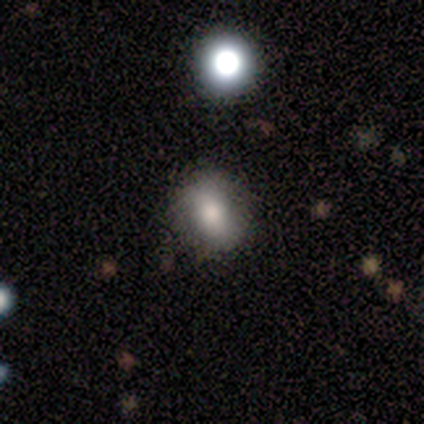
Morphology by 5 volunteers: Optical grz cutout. It shows a smooth galaxy with no disk features (40%, tied with featured or disk) that is round (50%, tied with in between). Merging: none (50%).